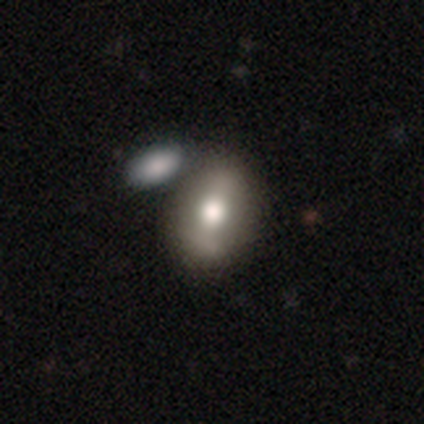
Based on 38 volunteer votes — Smooth or featured? smooth (71%)
How rounded? in between (74%)
Merging? merger (46%)